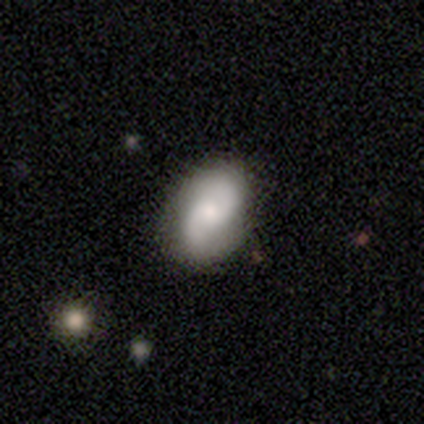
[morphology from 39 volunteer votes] Smooth or featured? 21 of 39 (54%) said featured or disk. Edge-on disk? 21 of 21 (100%) said no. Bar? 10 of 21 (48%, tied with no) said weak. Spiral arms? 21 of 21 (100%) said yes. Spiral winding? 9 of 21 (43%) said loose. Spiral arm count? 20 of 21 (95%) said 2. Bulge size? 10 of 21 (48%) said small. Merging? 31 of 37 (84%) said none.